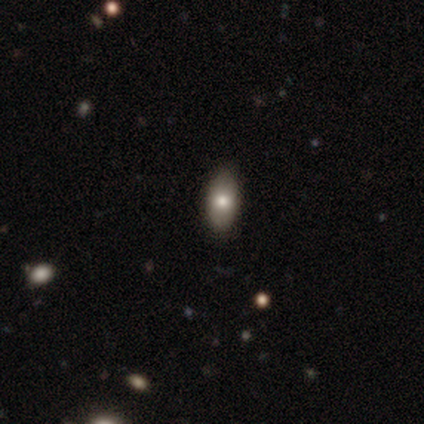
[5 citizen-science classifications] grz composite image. It shows a smooth galaxy with no disk features (80%) that is in between round and cigar-shaped (100%). Merging: none (100%).